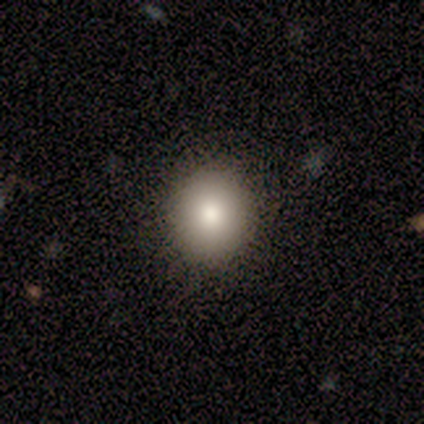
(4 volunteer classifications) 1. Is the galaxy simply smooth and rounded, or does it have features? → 75% featured or disk, 25% smooth, 0% star or artifact.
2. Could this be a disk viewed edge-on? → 100% no, 0% yes.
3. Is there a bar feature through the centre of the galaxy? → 100% no, 0% strong, 0% weak.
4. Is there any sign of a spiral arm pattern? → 100% no, 0% yes.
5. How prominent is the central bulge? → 67% large, 33% moderate, 0% dominant, 0% small, 0% none.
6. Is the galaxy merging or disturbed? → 75% none, 25% minor disturbance, 0% major disturbance, 0% merger.